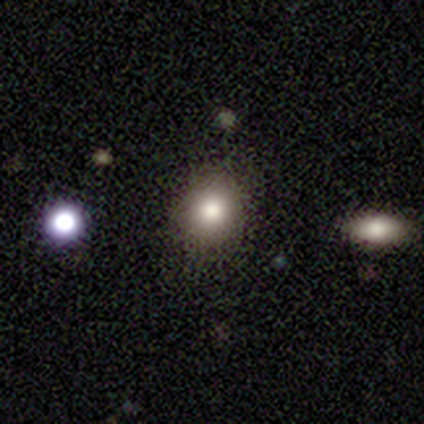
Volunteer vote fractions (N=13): Volunteers were most divided on "smooth or featured": smooth: 85%, featured or disk: 8%, star or artifact: 8%. More confident: how rounded — round (100%); merging — none (92%).